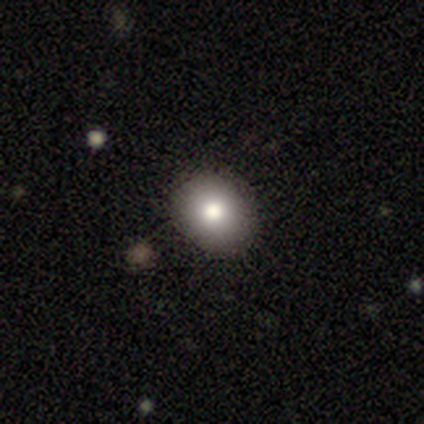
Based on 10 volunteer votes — A smooth galaxy with no disk features (80%) that is in between round and cigar-shaped (75%).

Vote fractions:
- Smooth or featured? smooth: 80% / star or artifact: 20% / featured or disk: 0%
- How rounded? in between: 75% / round: 25% / cigar-shaped: 0%
- Merging? none: 88% / minor disturbance: 12% / major disturbance: 0% / merger: 0%